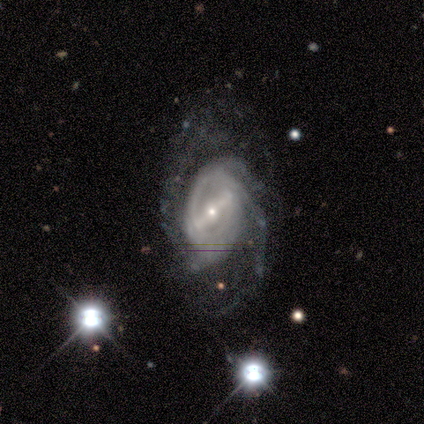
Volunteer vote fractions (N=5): Q: Smooth or featured?
A: featured or disk (80%); runner-up: star or artifact (20%)
Q: Edge-on disk?
A: no (75%); runner-up: yes (25%)
Q: Bar?
A: strong (67%); runner-up: weak (33%)
Q: Spiral arms?
A: yes (100%)
Q: Spiral winding?
A: medium (67%); runner-up: tight (33%)
Q: Spiral arm count?
A: 2 (33%); tied with: 3 (33%); can't tell (33%)
Q: Bulge size?
A: small (67%); runner-up: large (33%)
Q: Merging?
A: none (75%); runner-up: minor disturbance (25%)